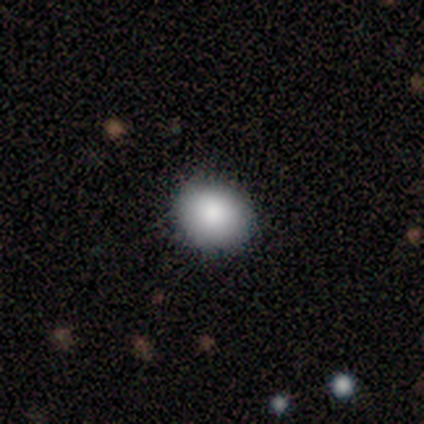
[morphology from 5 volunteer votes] type=smooth (100%); roundness=round (60%); merging=none (80%).